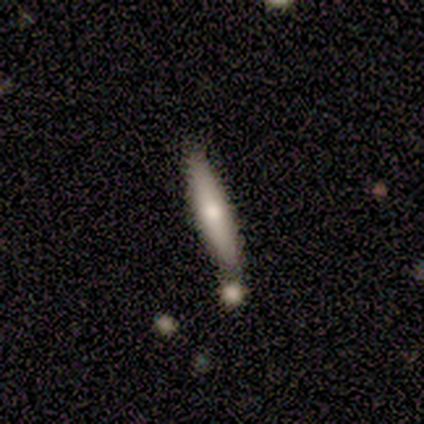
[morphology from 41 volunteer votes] Q: Smooth or featured?
A: smooth (56%); runner-up: featured or disk (44%)
Q: How rounded?
A: cigar-shaped (96%); runner-up: in between (4%)
Q: Merging?
A: none (56%); runner-up: merger (24%)